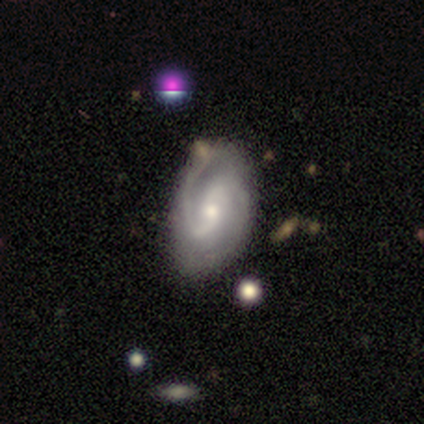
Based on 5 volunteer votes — Smooth or featured: featured or disk — 100%
Edge-on disk: no — 100%
Bar: no — 60% (strong — 20%)
Spiral arms: yes — 100%
Spiral winding: tight — 60% (medium — 40%)
Spiral arm count: 2 — 100%
Bulge size: moderate — 80% (small — 20%)
Merging: minor disturbance — 80% (none — 20%)